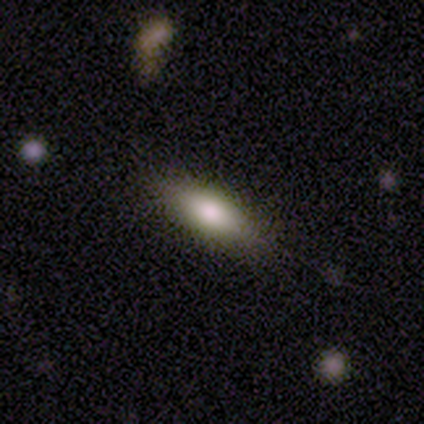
Smooth or featured?
  - smooth: 82% *
  - featured or disk: 13%
  - star or artifact: 5%
How rounded?
  - in between: 69% *
  - cigar-shaped: 28%
  - round: 3%
Merging?
  - none: 84% *
  - minor disturbance: 16%
  - major disturbance: 0%
  - merger: 0%